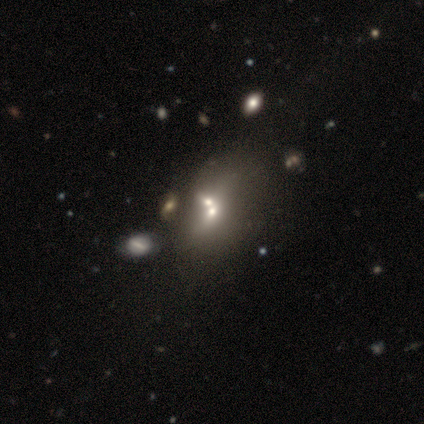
A smooth galaxy with no disk features (40%, tied with featured or disk) that is in between round and cigar-shaped (100%).

Vote fractions:
- Smooth or featured? smooth: 40% (tied) / featured or disk: 40% (tied) / star or artifact: 20%
- How rounded? in between: 100% / round: 0% / cigar-shaped: 0%
- Merging? merger: 100% / none: 0% / minor disturbance: 0% / major disturbance: 0%